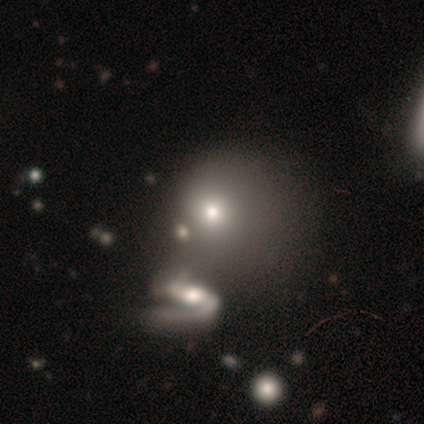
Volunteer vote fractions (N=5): Q: Smooth or featured?
A: smooth (60%); runner-up: featured or disk (40%)
Q: How rounded?
A: round (67%); runner-up: in between (33%)
Q: Merging?
A: none (40%); tied with: minor disturbance (40%)